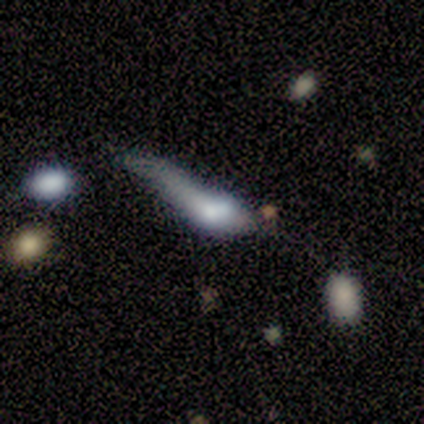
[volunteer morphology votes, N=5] A featured or disk galaxy (60%) with no bar (100%), no spiral arms (100%) and a dominant central bulge (33%, tied with large and small). Merging: minor disturbance (40%, tied with major disturbance).